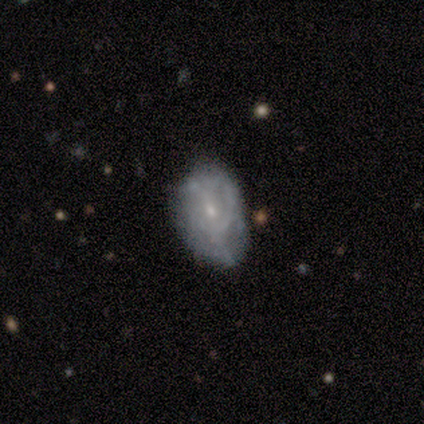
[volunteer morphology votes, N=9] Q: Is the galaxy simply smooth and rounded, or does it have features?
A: featured or disk — 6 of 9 (67%).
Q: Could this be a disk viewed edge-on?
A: no — 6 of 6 (100%).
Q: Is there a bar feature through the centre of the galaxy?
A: no — 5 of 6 (83%).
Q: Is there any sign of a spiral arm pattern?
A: yes — 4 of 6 (67%).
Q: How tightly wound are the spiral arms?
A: medium — 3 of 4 (75%).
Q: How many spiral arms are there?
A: can't tell — 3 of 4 (75%).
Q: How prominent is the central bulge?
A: small — 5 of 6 (83%).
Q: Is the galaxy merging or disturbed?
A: none — 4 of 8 (50%).